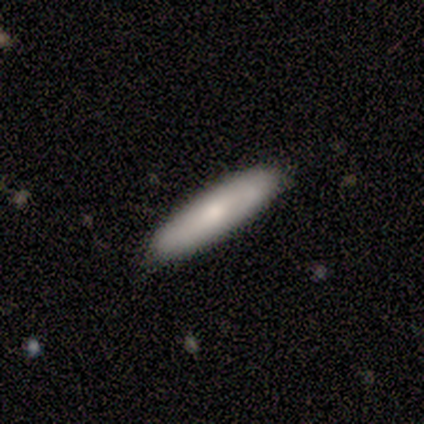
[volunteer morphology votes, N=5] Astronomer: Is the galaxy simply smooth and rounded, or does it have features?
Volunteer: smooth — 80%.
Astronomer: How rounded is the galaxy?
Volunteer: in between — 50%, tied with cigar-shaped at 50%.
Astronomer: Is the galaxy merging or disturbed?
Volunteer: none — 80%.